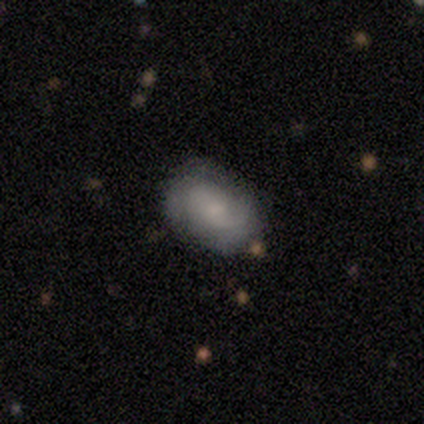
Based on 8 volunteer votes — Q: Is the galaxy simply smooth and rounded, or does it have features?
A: featured or disk — 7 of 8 (88%).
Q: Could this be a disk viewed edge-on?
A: no — 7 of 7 (100%).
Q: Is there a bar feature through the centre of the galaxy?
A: no — 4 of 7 (57%).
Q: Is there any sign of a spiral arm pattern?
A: yes — 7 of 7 (100%).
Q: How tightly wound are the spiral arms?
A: medium — 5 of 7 (71%).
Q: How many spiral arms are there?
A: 2 — 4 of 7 (57%).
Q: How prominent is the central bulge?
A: small — 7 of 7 (100%).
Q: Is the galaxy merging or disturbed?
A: none — 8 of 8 (100%).